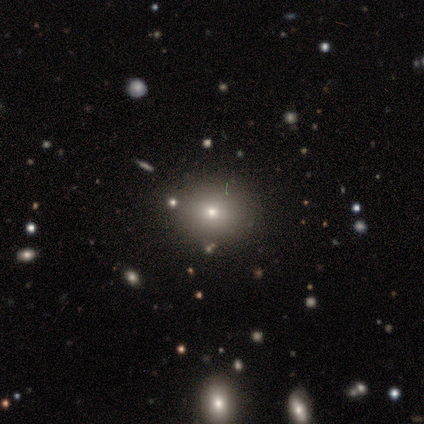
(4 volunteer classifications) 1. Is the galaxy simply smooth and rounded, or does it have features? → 100% smooth, 0% featured or disk, 0% star or artifact.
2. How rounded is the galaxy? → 50% round (tied), 50% in between (tied), 0% cigar-shaped.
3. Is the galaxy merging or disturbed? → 75% none, 25% minor disturbance, 0% major disturbance, 0% merger.